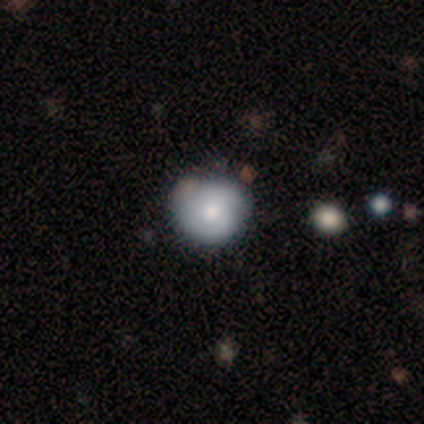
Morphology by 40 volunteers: Smooth or featured? smooth (70%)
How rounded? round (100%)
Merging? none (55%)